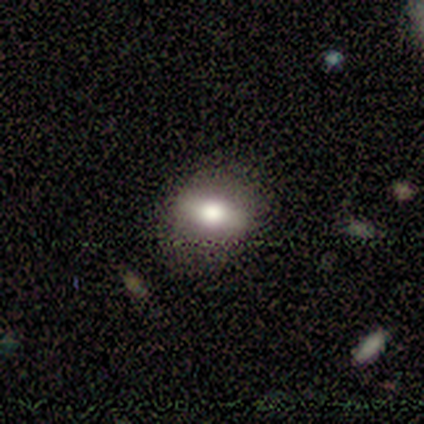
Q: Smooth or featured?
A: smooth (80%); runner-up: featured or disk (20%)
Q: How rounded?
A: in between (100%)
Q: Merging?
A: none (100%)